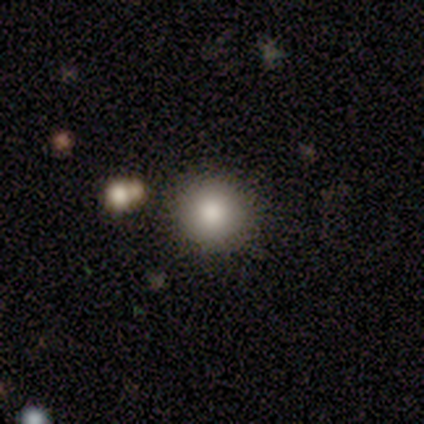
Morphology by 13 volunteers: A smooth galaxy with no disk features (92%) that is round (100%).

Vote fractions:
- Smooth or featured? smooth: 92% / star or artifact: 8% / featured or disk: 0%
- How rounded? round: 100% / in between: 0% / cigar-shaped: 0%
- Merging? none: 83% / merger: 17% / minor disturbance: 0% / major disturbance: 0%